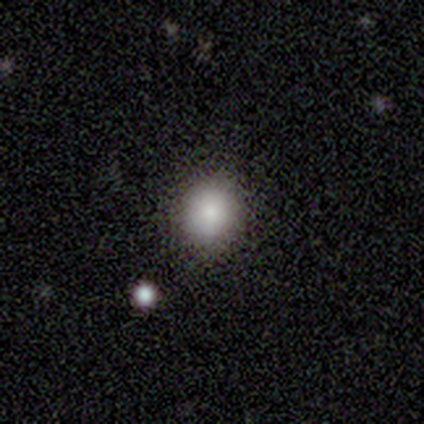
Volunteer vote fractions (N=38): Smooth or featured?
  - smooth: 79% *
  - star or artifact: 13%
  - featured or disk: 8%
How rounded?
  - round: 97% *
  - in between: 3%
  - cigar-shaped: 0%
Merging?
  - none: 91% *
  - merger: 6%
  - minor disturbance: 3%
  - major disturbance: 0%